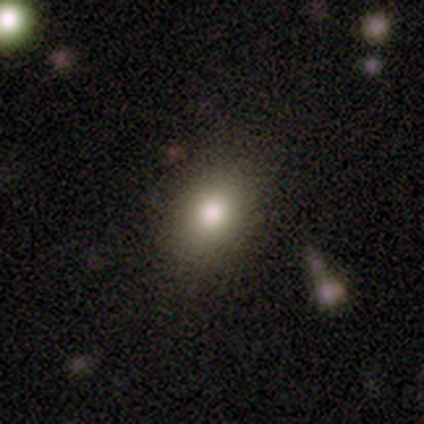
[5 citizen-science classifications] Q: Smooth or featured?
A: smooth (60%); runner-up: featured or disk (20%)
Q: How rounded?
A: in between (67%); runner-up: round (33%)
Q: Merging?
A: none (100%)